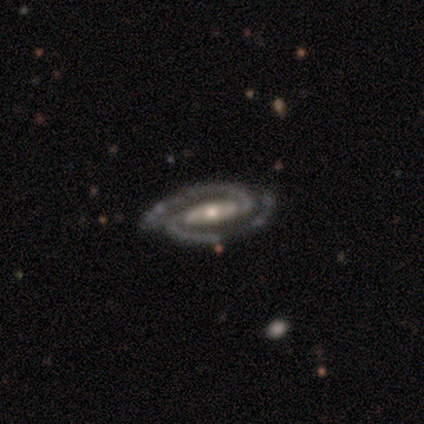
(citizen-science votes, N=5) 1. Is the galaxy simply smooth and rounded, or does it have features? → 100% featured or disk, 0% smooth, 0% star or artifact.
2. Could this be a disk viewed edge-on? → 80% no, 20% yes.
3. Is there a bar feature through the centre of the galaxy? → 75% strong, 25% weak, 0% no.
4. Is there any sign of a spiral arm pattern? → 100% yes, 0% no.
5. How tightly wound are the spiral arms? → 75% medium, 25% loose, 0% tight.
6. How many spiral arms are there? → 100% 2, 0% 1, 0% 3, 0% 4, 0% more than 4, 0% can't tell.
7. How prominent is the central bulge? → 75% small, 25% large, 0% dominant, 0% moderate, 0% none.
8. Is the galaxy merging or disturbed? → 100% none, 0% minor disturbance, 0% major disturbance, 0% merger.